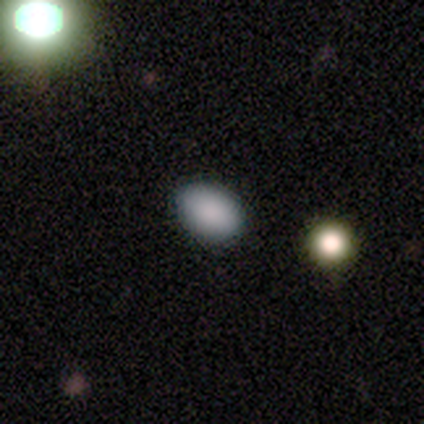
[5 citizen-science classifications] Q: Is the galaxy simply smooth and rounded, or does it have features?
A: smooth — 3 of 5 (60%).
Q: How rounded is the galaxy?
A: in between — 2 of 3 (67%).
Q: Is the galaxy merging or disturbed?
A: none — 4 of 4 (100%).